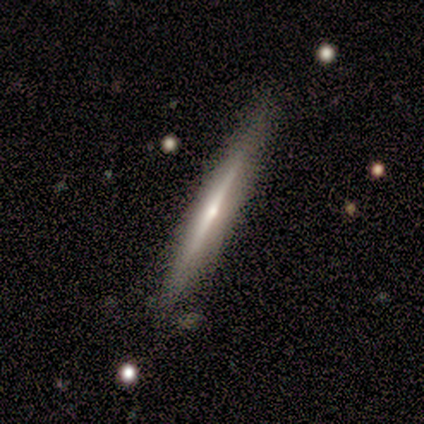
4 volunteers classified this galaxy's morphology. A featured or disk galaxy (75%) viewed edge-on (100%) with a rounded central bulge (67%).

Vote fractions:
- Smooth or featured? featured or disk: 75% / smooth: 25% / star or artifact: 0%
- Edge-on disk? yes: 100% / no: 0%
- Edge-on bulge? rounded: 67% / boxy: 33% / none: 0%
- Merging? none: 50% / minor disturbance: 25% / major disturbance: 25% / merger: 0%